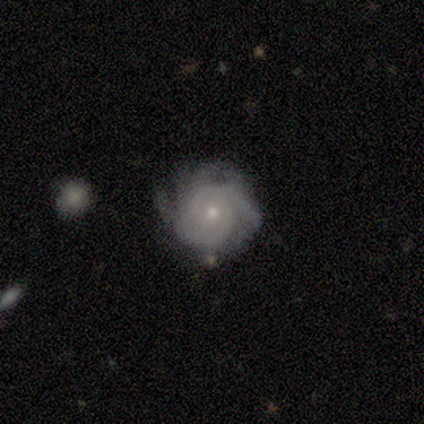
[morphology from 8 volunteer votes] smooth_or_featured: featured or disk (p=1.00)
disk_edge_on: no (p=1.00)
bar: no (p=0.75) [alt: strong p=0.12]
has_spiral_arms: yes (p=1.00)
spiral_winding: tight (p=0.62) [alt: medium p=0.38]
spiral_arm_count: 2 (p=0.38) [alt: 4 p=0.25]
bulge_size: small (p=1.00)
merging: none (p=0.62) [alt: minor disturbance p=0.38]